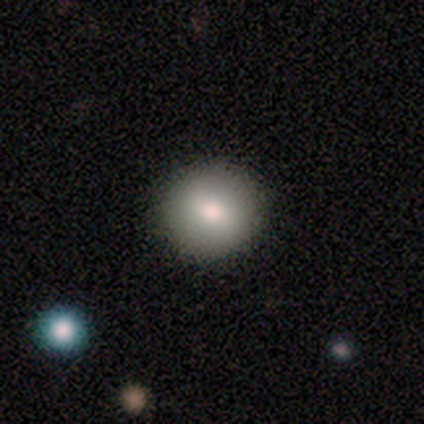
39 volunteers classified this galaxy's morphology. A smooth galaxy with no disk features (77%) that is round (90%). Merging: none (100%).